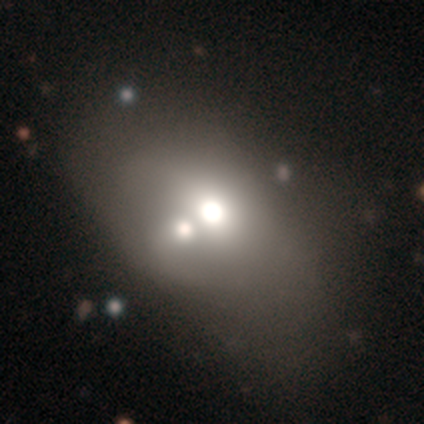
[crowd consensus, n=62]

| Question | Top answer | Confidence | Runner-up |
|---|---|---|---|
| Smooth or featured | smooth | 53% | star or artifact (27%) |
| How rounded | in between | 85% | round (12%) |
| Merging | merger | 56% | minor disturbance (2%) |